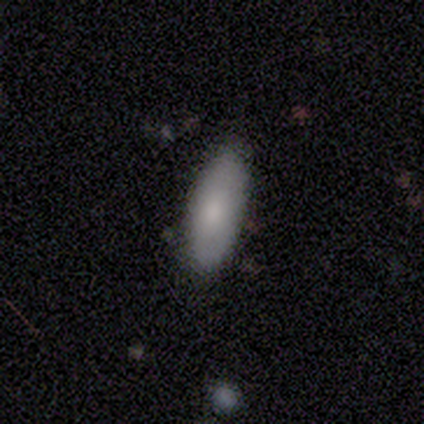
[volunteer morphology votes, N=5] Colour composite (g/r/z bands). It shows a smooth galaxy with no disk features (80%) that is in between round and cigar-shaped (75%). Merging: none (60%).